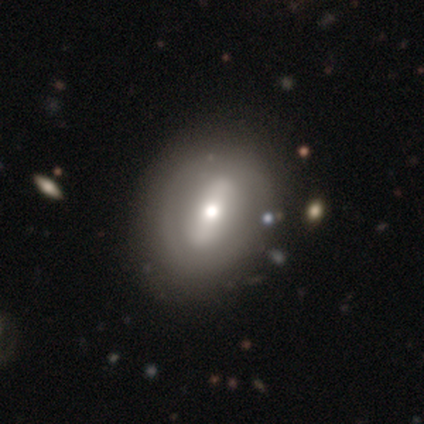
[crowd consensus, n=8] Smooth or featured? featured or disk (62%)
Edge-on disk? no (100%)
Bar? strong (80%)
Spiral arms? no (100%)
Bulge size? large (40%, tied with moderate)
Merging? none (57%)